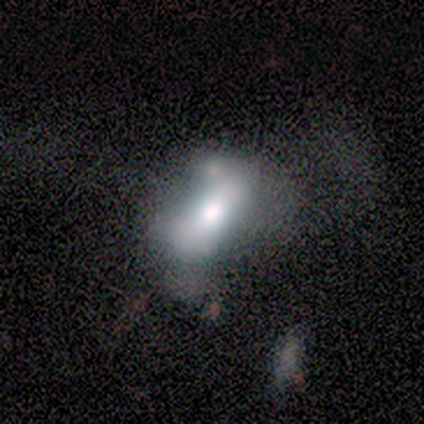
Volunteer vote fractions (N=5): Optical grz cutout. It shows a featured or disk galaxy (60%) with no bar (67%), no spiral arms (100%) and a dominant central bulge (33%, tied with large and moderate). Merging: minor disturbance (40%).